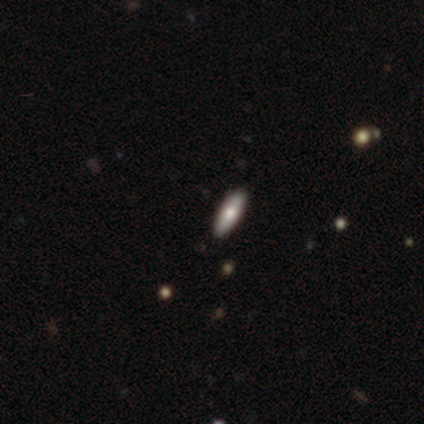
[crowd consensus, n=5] A featured or disk galaxy (60%) viewed edge-on (100%) with a rounded central bulge (100%). Merging: none (60%).